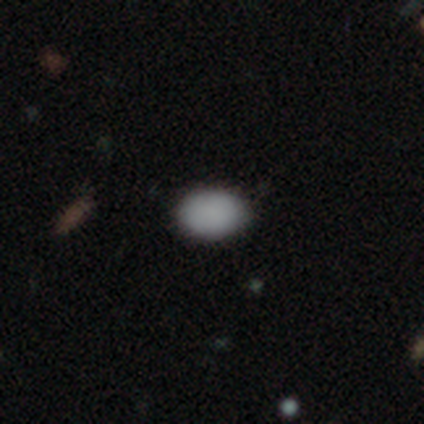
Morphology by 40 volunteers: Smooth or featured?
  - smooth: 95% *
  - star or artifact: 5%
  - featured or disk: 0%
How rounded?
  - in between: 82% *
  - round: 18%
  - cigar-shaped: 0%
Merging?
  - none: 95% *
  - minor disturbance: 5%
  - major disturbance: 0%
  - merger: 0%